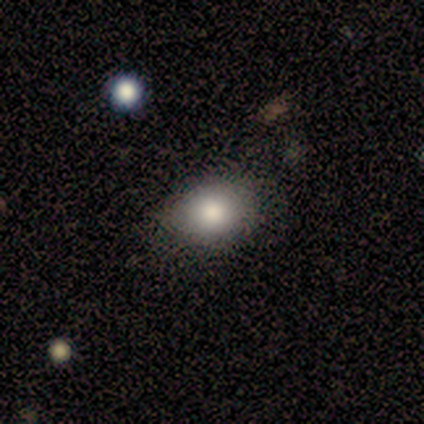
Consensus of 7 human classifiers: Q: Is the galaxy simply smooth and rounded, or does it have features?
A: smooth — 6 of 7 (86%).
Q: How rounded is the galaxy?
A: round — 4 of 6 (67%).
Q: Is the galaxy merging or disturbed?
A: none — 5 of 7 (71%).